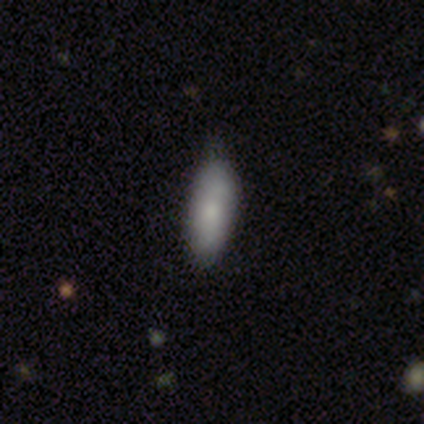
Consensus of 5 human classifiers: smooth_or_featured: smooth (p=1.00)
how_rounded: cigar-shaped (p=0.80) [alt: in between p=0.20]
merging: none (p=0.60) [alt: minor disturbance p=0.40]